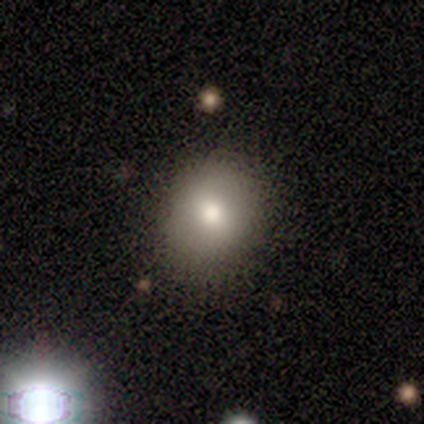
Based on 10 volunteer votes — smooth 80%, featured or disk 20%, star or artifact 0%. Down the decision tree: how rounded — in between (50%); merging — none (70%).